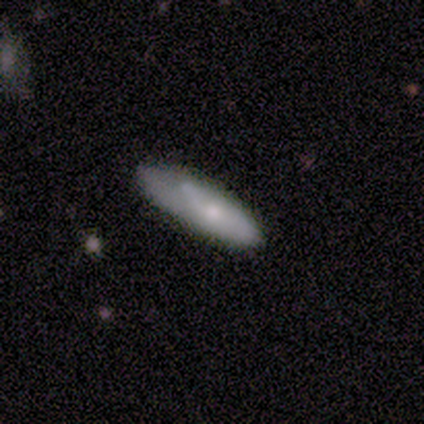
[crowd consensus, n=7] This is likely a featured or disk galaxy (71%). It is clearly not viewed edge-on (80%). Bar: clearly no (100%). Spiral arm pattern: possibly yes (50%, tied with no). Spiral arm count: possibly 1 (50%, tied with can't tell). Spiral winding: possibly tight (50%, tied with loose). Central bulge: clearly small (100%). Merging: possibly minor disturbance (57%).